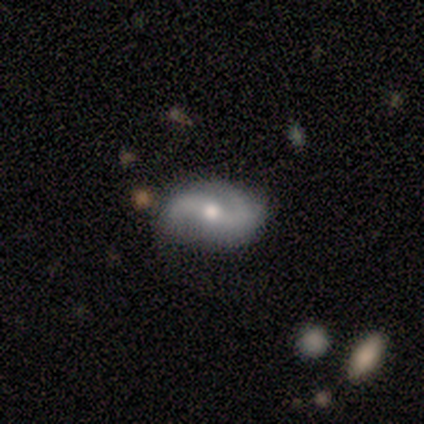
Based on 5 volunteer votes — Overall: featured or disk (80%). Edge-on disk: no (100%). Bar: no (50%; strong 25%). Spiral arms: yes (100%). Spiral arm count: 2 (100%). Spiral winding: loose (100%). Bulge size: moderate (100%). Merging: none (100%).